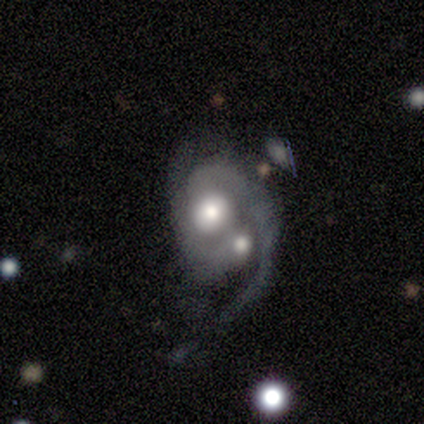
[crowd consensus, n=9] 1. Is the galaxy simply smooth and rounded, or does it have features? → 100% featured or disk, 0% smooth, 0% star or artifact.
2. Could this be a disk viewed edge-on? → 100% no, 0% yes.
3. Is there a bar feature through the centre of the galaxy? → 78% no, 22% weak, 0% strong.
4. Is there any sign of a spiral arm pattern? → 100% yes, 0% no.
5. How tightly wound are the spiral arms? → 44% loose, 33% tight, 22% medium.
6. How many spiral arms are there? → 78% 2, 22% 1, 0% 3, 0% 4, 0% more than 4, 0% can't tell.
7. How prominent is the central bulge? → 56% large, 33% moderate, 11% none, 0% dominant, 0% small.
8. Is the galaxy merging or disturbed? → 67% merger, 22% major disturbance, 11% none, 0% minor disturbance.